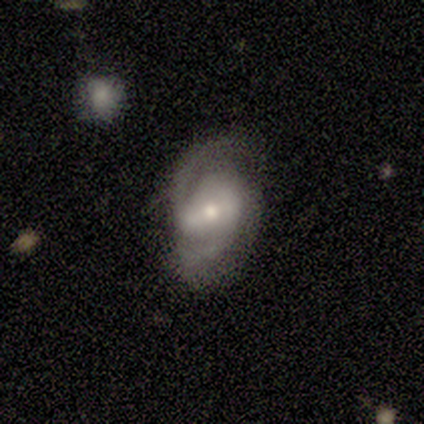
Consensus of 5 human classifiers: Overall: featured or disk (100%). Edge-on disk: no (100%). Bar: strong (40%, tied with weak). Spiral arms: yes (100%). Spiral arm count: 2 (100%). Spiral winding: medium (60%; tight 40%). Bulge size: small (60%; moderate 40%). Merging: none (80%).